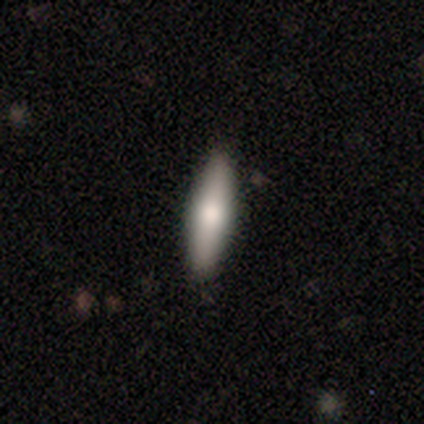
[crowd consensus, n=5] A smooth galaxy with no disk features (80%) that is in between round and cigar-shaped (75%).

Vote fractions:
- Smooth or featured? smooth: 80% / featured or disk: 20% / star or artifact: 0%
- How rounded? in between: 75% / cigar-shaped: 25% / round: 0%
- Merging? none: 100% / minor disturbance: 0% / major disturbance: 0% / merger: 0%